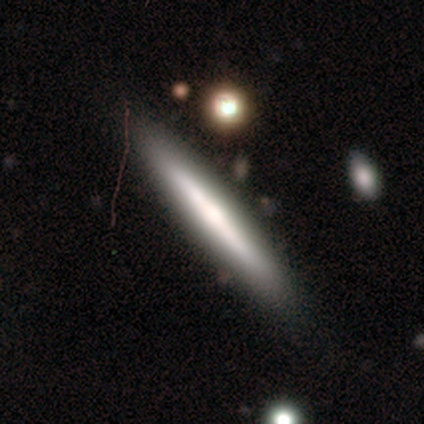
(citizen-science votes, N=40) A featured or disk galaxy (48%) viewed edge-on (100%) with no central bulge (53%).

Vote fractions:
- Smooth or featured? featured or disk: 48% / smooth: 45% / star or artifact: 8%
- Edge-on disk? yes: 100% / no: 0%
- Edge-on bulge? none: 53% / rounded: 32% / boxy: 16%
- Merging? none: 86% / minor disturbance: 8% / major disturbance: 3% / merger: 3%